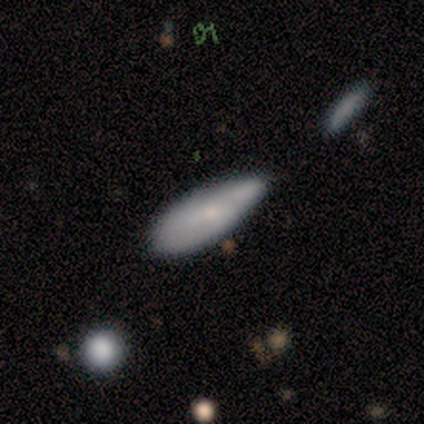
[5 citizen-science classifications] Smooth or featured: smooth — 100%
How rounded: cigar-shaped — 60% (in between — 40%)
Merging: none — 60% (minor disturbance — 40%)